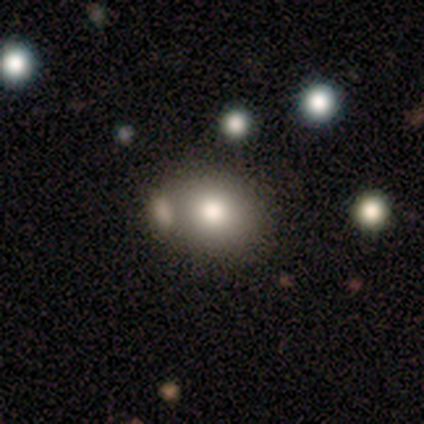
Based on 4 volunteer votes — Smooth or featured?
  - smooth: 50% * (tied)
  - star or artifact: 50% * (tied)
  - featured or disk: 0%
How rounded?
  - in between: 100% *
  - round: 0%
  - cigar-shaped: 0%
Merging?
  - none: 50% * (tied)
  - minor disturbance: 50% * (tied)
  - major disturbance: 0%
  - merger: 0%